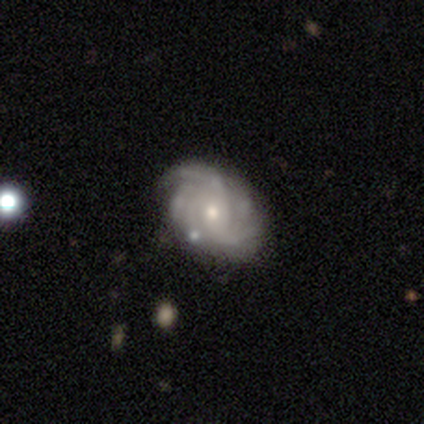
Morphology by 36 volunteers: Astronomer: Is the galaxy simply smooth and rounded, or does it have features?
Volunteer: featured or disk — 97%.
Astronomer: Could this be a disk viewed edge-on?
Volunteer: no — 97%.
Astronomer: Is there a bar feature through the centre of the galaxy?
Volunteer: no — 76%.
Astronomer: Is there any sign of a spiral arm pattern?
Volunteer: yes — 97%.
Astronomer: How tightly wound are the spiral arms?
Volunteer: tight — 45% (runner-up: medium, 36%).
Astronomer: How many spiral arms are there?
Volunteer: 2 — 27% (runner-up: more than 4, 24%).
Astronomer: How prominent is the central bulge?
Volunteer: small — 50% (runner-up: moderate, 44%).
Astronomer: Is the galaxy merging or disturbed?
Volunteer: none — 39%.